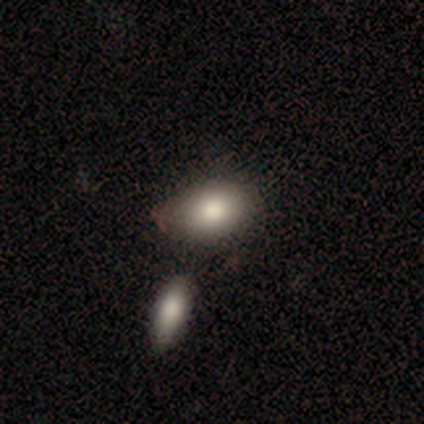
This is clearly a smooth galaxy (80%). How rounded: likely in between (75%). Merging: clearly none (100%).